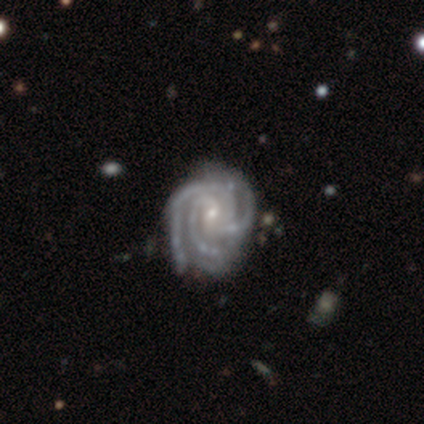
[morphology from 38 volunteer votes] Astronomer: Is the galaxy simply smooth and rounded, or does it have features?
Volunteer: featured or disk — 100%.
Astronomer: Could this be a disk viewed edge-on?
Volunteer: no — 100%.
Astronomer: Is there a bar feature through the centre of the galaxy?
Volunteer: weak — 47% (runner-up: no, 45%).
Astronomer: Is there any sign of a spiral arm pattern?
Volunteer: yes — 100%.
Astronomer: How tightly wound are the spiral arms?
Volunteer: tight — 79%.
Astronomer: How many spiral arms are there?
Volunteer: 3 — 74%.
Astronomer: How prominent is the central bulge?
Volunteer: small — 66%.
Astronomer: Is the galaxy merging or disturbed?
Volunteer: none — 55%.